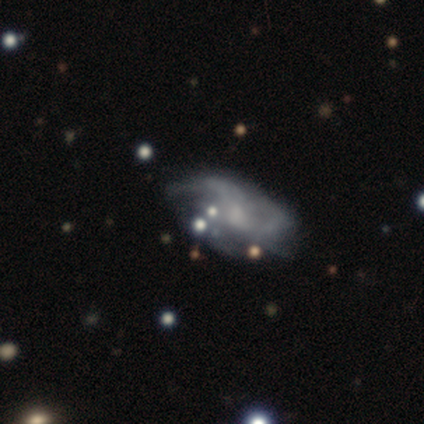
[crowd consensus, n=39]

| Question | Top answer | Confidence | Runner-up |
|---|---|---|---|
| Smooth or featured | featured or disk | 77% | smooth (15%) |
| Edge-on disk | no | 100% | — |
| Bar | no | 70% | weak (27%) |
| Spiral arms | yes | 87% | no (13%) |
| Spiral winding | loose | 46% | medium (38%) |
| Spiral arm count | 2 | 35% | 3 (27%) |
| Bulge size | none | 63% | small (20%) |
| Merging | none | 36% | minor disturbance (33%) |